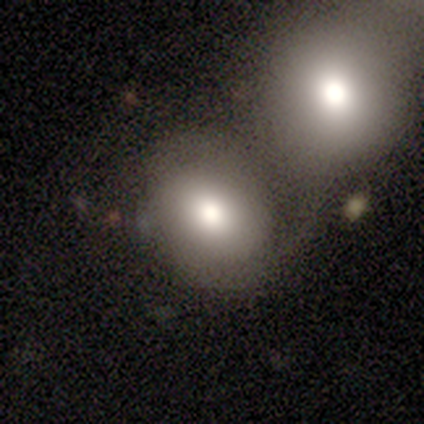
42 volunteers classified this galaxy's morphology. Smooth or featured?
  - smooth: 67% *
  - featured or disk: 21%
  - star or artifact: 12%
How rounded?
  - in between: 50% *
  - round: 46%
  - cigar-shaped: 4%
Merging?
  - merger: 65% *
  - none: 27%
  - minor disturbance: 5%
  - major disturbance: 3%